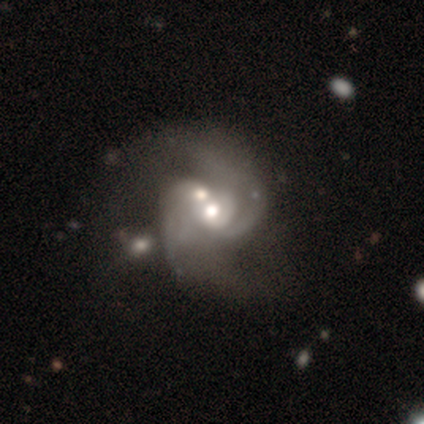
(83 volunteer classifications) This is clearly a featured or disk galaxy (90%). It is clearly not viewed edge-on (99%). Bar: likely no (66%). Spiral arm pattern: clearly yes (91%). Spiral arm count: likely 2 (64%). Spiral winding: possibly medium (57%). Central bulge: likely moderate (72%). Merging: possibly merger (54%).